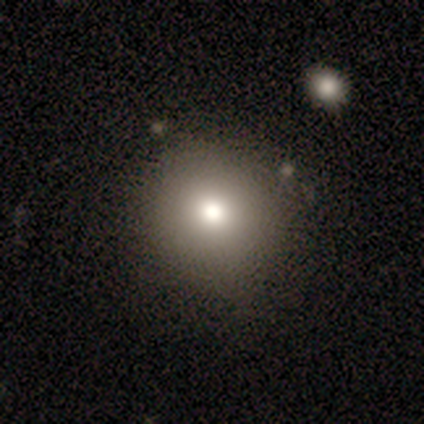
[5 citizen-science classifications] Smooth or featured? 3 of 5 (60%) said smooth. How rounded? 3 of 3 (100%) said round. Merging? 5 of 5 (100%) said none.